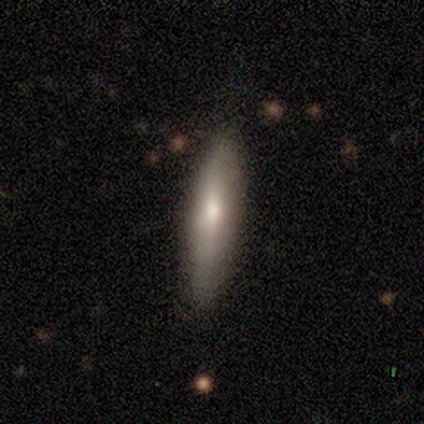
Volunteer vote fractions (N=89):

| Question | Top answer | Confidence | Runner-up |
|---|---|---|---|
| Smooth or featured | smooth | 69% | featured or disk (28%) |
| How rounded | cigar-shaped | 82% | in between (18%) |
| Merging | none | 78% | minor disturbance (19%) |